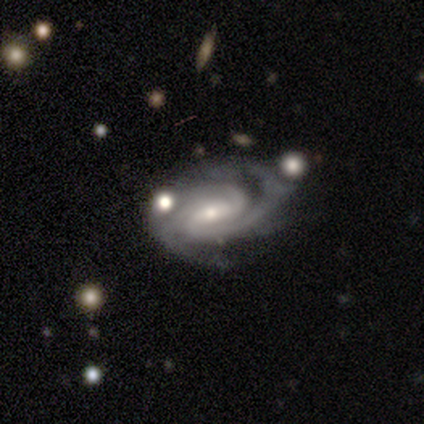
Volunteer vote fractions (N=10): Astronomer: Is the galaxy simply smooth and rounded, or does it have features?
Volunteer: featured or disk — 90%.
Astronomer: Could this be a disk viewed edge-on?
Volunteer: no — 100%.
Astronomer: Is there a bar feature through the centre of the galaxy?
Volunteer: weak — 56%.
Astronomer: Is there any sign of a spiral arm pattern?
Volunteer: yes — 100%.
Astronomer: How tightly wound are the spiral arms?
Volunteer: tight — 89%.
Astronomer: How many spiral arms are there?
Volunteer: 2 — 89%.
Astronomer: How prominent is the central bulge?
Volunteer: small — 78%.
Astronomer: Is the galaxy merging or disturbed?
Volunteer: none — 50%, tied with minor disturbance at 50%.